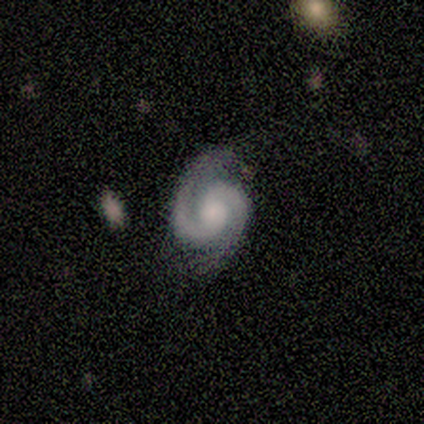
smooth_or_featured: featured or disk (p=1.00)
disk_edge_on: no (p=1.00)
bar: no (p=0.80) [alt: weak p=0.20]
has_spiral_arms: yes (p=0.80) [alt: no p=0.20]
spiral_winding: tight (p=0.50) [tied with: medium p=0.50]
spiral_arm_count: 2 (p=1.00)
bulge_size: moderate (p=0.60) [alt: dominant p=0.20]
merging: none (p=0.80) [alt: minor disturbance p=0.20]